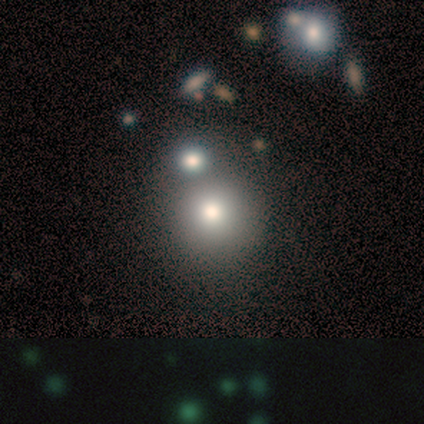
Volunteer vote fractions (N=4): smooth_or_featured: smooth (p=0.75) [alt: featured or disk p=0.25]
how_rounded: round (p=1.00)
merging: none (p=0.50) [alt: major disturbance p=0.25]